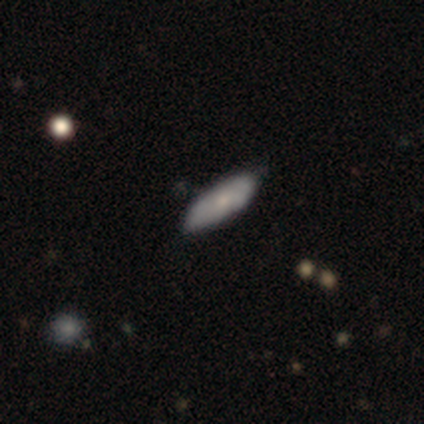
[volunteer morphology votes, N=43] Q: Smooth or featured?
A: smooth (53%); runner-up: featured or disk (42%)
Q: How rounded?
A: in between (61%); runner-up: cigar-shaped (39%)
Q: Merging?
A: none (66%); runner-up: minor disturbance (27%)